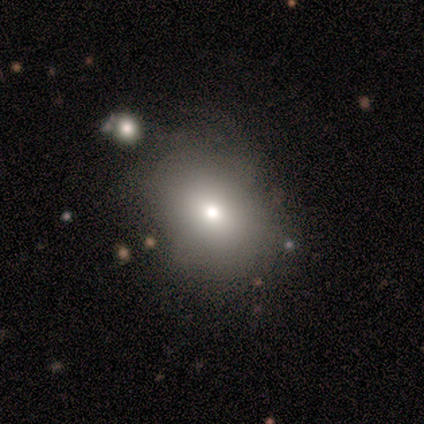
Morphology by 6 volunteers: A smooth galaxy with no disk features (33%, tied with featured or disk and star or artifact) that is round (50%, tied with in between).

Vote fractions:
- Smooth or featured? smooth: 33% (tied) / featured or disk: 33% (tied) / star or artifact: 33% (tied)
- How rounded? round: 50% (tied) / in between: 50% (tied) / cigar-shaped: 0%
- Merging? none: 100% / minor disturbance: 0% / major disturbance: 0% / merger: 0%